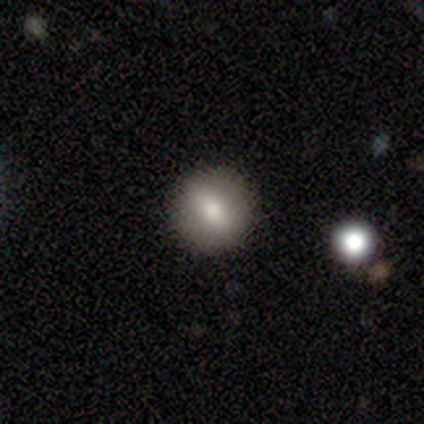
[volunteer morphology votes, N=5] Smooth or featured?
  - smooth: 80% *
  - star or artifact: 20%
  - featured or disk: 0%
How rounded?
  - round: 100% *
  - in between: 0%
  - cigar-shaped: 0%
Merging?
  - none: 50% * (tied)
  - minor disturbance: 50% * (tied)
  - major disturbance: 0%
  - merger: 0%